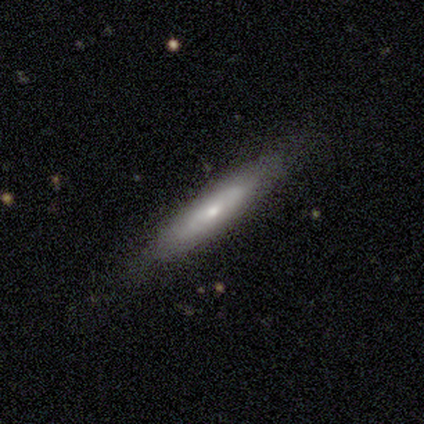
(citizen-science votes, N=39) Morphology: type=smooth (64%); roundness=cigar-shaped (100%); merging=none (78%).